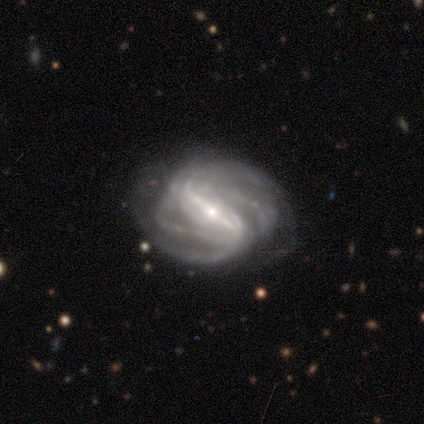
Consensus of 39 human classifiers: Q: Smooth or featured?
A: featured or disk (92%); runner-up: smooth (5%)
Q: Edge-on disk?
A: no (92%); runner-up: yes (8%)
Q: Bar?
A: strong (82%); runner-up: weak (15%)
Q: Spiral arms?
A: yes (94%); runner-up: no (6%)
Q: Spiral winding?
A: medium (45%); runner-up: tight (42%)
Q: Spiral arm count?
A: 2 (32%); tied with: can't tell (32%)
Q: Bulge size?
A: small (55%); runner-up: moderate (39%)
Q: Merging?
A: none (58%); runner-up: minor disturbance (21%)